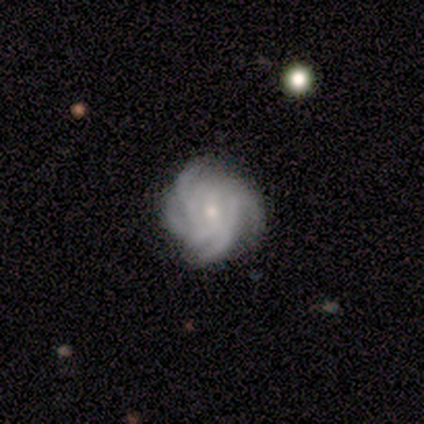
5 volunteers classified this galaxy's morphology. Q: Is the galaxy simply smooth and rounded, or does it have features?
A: featured or disk — 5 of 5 (100%).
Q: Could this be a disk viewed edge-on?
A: no — 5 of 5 (100%).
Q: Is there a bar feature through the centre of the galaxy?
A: no — 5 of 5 (100%).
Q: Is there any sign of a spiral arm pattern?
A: yes — 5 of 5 (100%).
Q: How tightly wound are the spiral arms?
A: tight — 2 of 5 (40%, tied with medium).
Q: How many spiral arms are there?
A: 4 — 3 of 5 (60%).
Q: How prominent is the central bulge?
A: small — 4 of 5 (80%).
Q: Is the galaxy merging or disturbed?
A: none — 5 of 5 (100%).